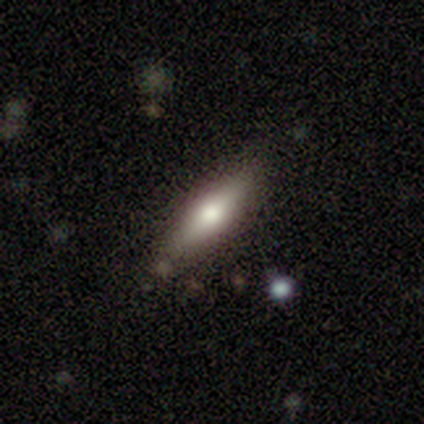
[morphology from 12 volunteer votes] Volunteers were most divided on "smooth or featured" (2-way tie): smooth: 50%, featured or disk: 50%, star or artifact: 0%. More confident: merging — none (92%); how rounded — cigar-shaped (67%).